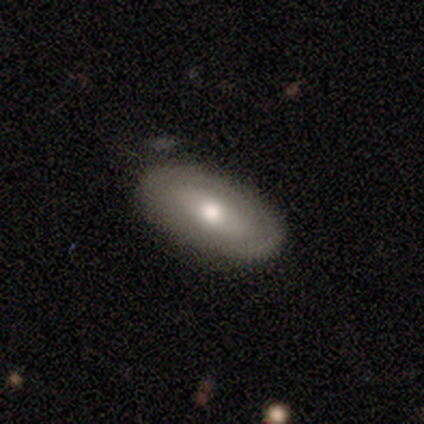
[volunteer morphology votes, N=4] This is possibly a smooth galaxy (50%, tied with featured or disk). How rounded: clearly in between (100%). Merging: clearly none (100%).